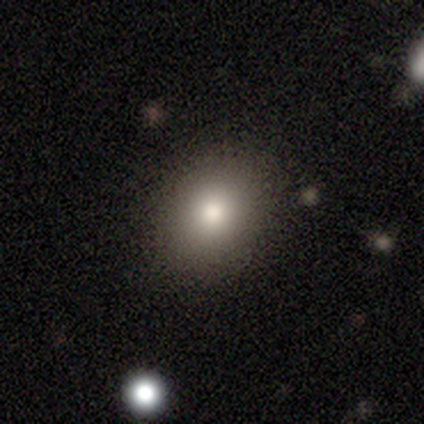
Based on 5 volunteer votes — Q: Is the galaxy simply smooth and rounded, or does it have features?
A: smooth — 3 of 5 (60%).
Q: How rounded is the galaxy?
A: round — 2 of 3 (67%).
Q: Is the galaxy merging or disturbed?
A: none — 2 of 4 (50%, tied with minor disturbance).